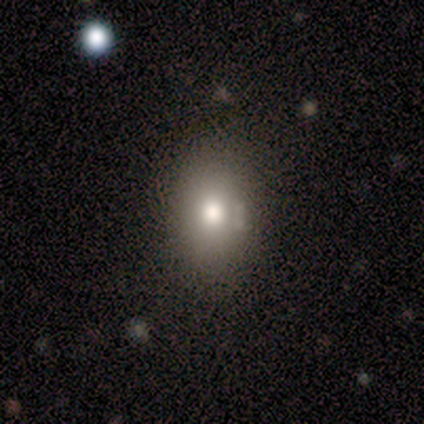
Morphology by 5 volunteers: smooth-or-featured: smooth: 100% | featured or disk: 0% | star or artifact: 0%
  how-rounded: in between: 100% | round: 0% | cigar-shaped: 0%
  merging: none: 60% | minor disturbance: 40% | major disturbance: 0% | merger: 0%